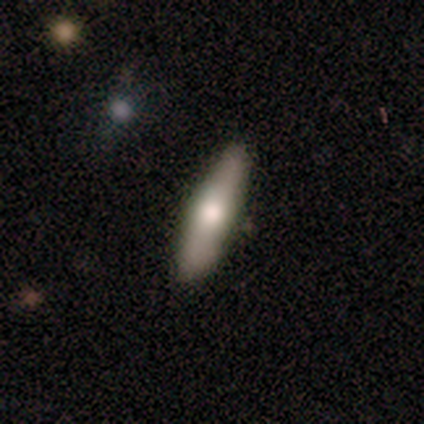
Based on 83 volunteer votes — This appears to be a smooth galaxy with no disk features (63%) that is cigar-shaped (77%). Merging: none (80%).